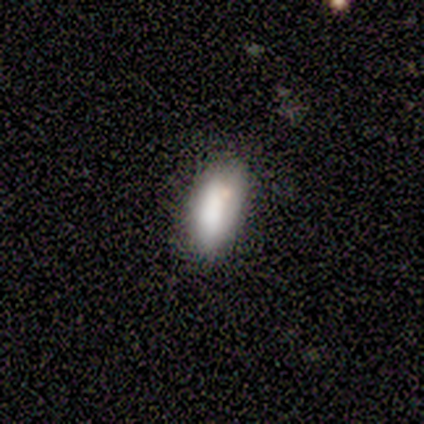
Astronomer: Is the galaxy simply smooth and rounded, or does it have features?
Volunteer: smooth — 100%.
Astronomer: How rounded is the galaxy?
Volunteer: in between — 100%.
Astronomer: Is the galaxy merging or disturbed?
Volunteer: none — 75%.